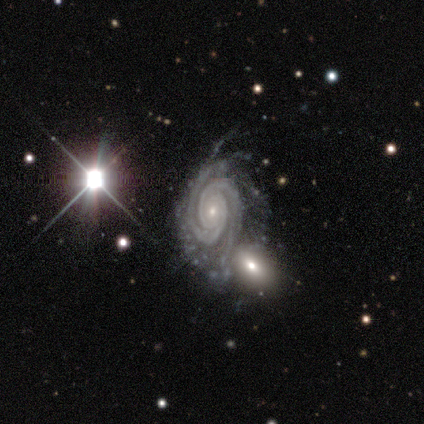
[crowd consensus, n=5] smooth-or-featured: featured or disk: 100% | smooth: 0% | star or artifact: 0%
  disk-edge-on: no: 100% | yes: 0%
    bar: no: 60% | weak: 40% | strong: 0%
    has-spiral-arms: yes: 100% | no: 0%
      spiral-winding: tight: 80% | medium: 20% | loose: 0%
      spiral-arm-count: 2: 60% | more than 4: 40% | 1: 0% | 3: 0% | 4: 0% | can't tell: 0%
    bulge-size: small: 80% | moderate: 20% | dominant: 0% | large: 0% | none: 0%
  merging: minor disturbance: 40% | none: 20% | major disturbance: 20% | merger: 20%